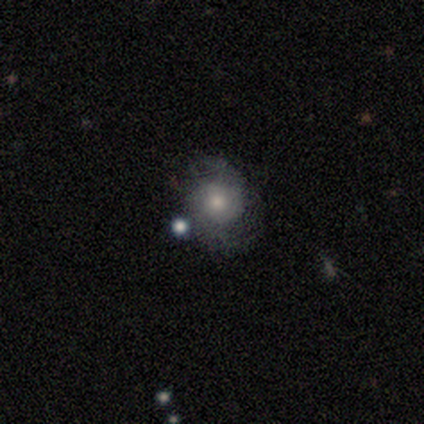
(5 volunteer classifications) Smooth or featured? featured or disk (80%)
Edge-on disk? no (100%)
Bar? no (100%)
Spiral arms? yes (50%, tied with no)
Spiral winding? tight (50%, tied with medium)
Spiral arm count? 2 (100%)
Bulge size? dominant (25%, tied with large, moderate and none)
Merging? none (60%)